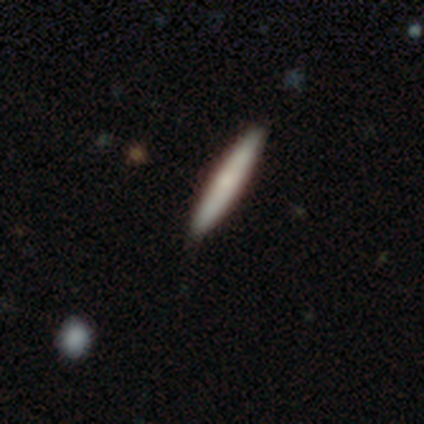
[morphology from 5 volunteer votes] This appears to be a smooth galaxy with no disk features (80%) that is cigar-shaped (75%). Merging: none (100%).